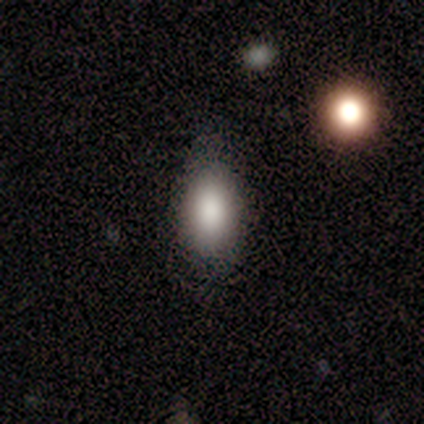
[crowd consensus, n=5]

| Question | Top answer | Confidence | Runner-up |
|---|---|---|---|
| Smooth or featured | smooth | 100% | — |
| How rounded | in between | 60% | round (40%) |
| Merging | none | 60% | minor disturbance (20%) |